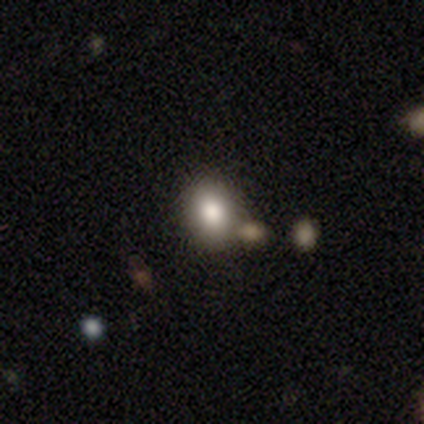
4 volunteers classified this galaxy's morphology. smooth_or_featured: smooth (p=0.75) [alt: star or artifact p=0.25]
how_rounded: round (p=1.00)
merging: none (p=1.00)